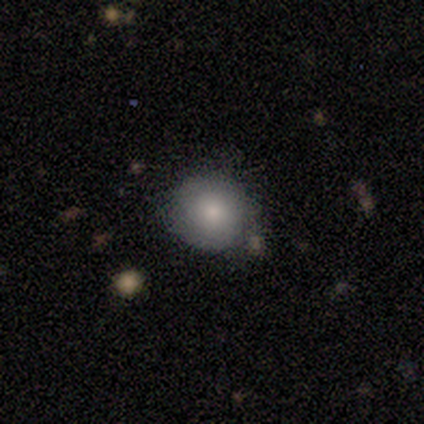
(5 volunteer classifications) Volunteers were most divided on "how rounded": round: 80%, in between: 20%, cigar-shaped: 0%. More confident: smooth or featured — smooth (100%); merging — none (80%).